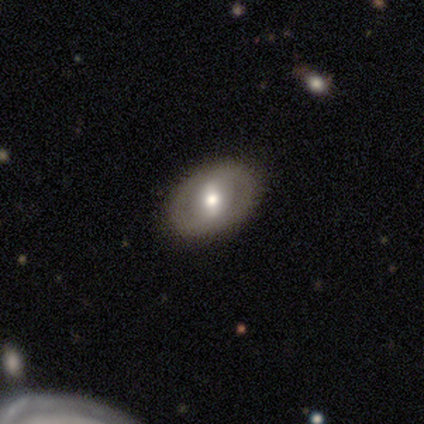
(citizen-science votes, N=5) Smooth or featured? featured or disk (60%)
Edge-on disk? no (100%)
Bar? weak (67%)
Spiral arms? no (67%)
Bulge size? moderate (100%)
Merging? none (80%)